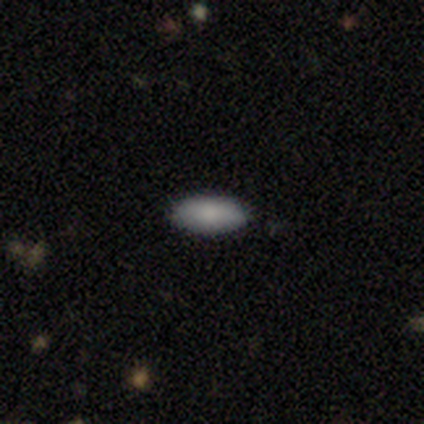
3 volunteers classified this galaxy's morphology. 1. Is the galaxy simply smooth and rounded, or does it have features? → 100% smooth, 0% featured or disk, 0% star or artifact.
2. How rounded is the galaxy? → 100% in between, 0% round, 0% cigar-shaped.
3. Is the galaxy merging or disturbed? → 100% none, 0% minor disturbance, 0% major disturbance, 0% merger.